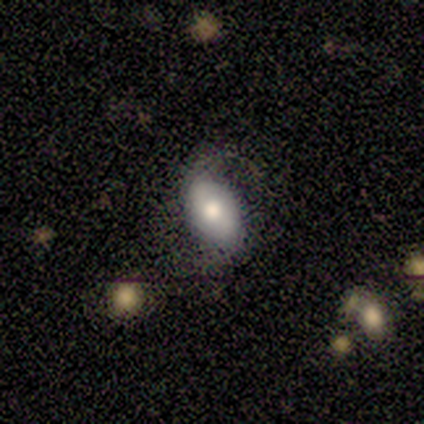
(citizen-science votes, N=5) Smooth or featured?
  - smooth: 60% *
  - featured or disk: 40%
  - star or artifact: 0%
How rounded?
  - in between: 100% *
  - round: 0%
  - cigar-shaped: 0%
Merging?
  - none: 60% *
  - minor disturbance: 40%
  - major disturbance: 0%
  - merger: 0%